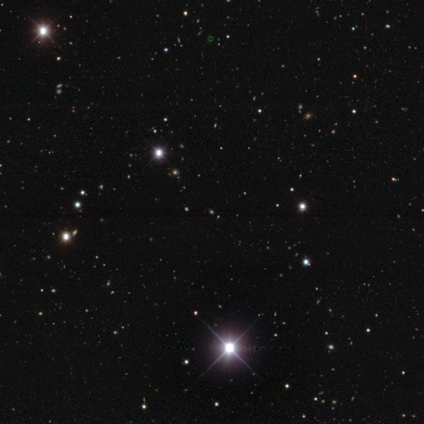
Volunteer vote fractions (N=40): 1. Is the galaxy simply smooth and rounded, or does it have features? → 90% star or artifact, 5% smooth, 5% featured or disk.